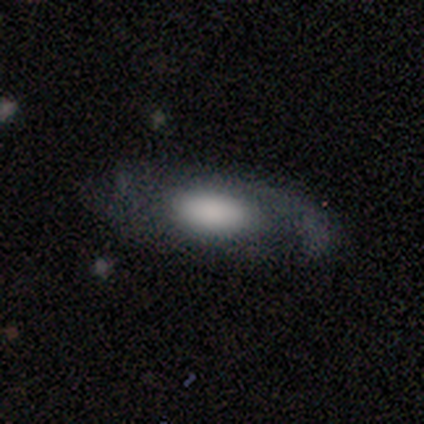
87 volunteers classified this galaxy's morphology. Volunteers were most divided on "smooth or featured": smooth: 56%, featured or disk: 43%, star or artifact: 1%. More confident: how rounded — in between (82%); merging — none (53%).